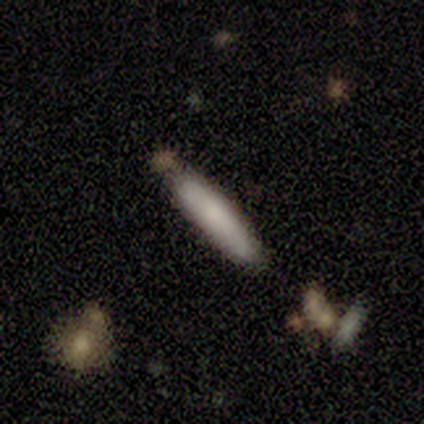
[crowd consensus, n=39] smooth-or-featured: smooth: 56% | featured or disk: 31% | star or artifact: 13%
  how-rounded: cigar-shaped: 91% | in between: 9% | round: 0%
  merging: none: 71% | minor disturbance: 18% | merger: 12% | major disturbance: 0%